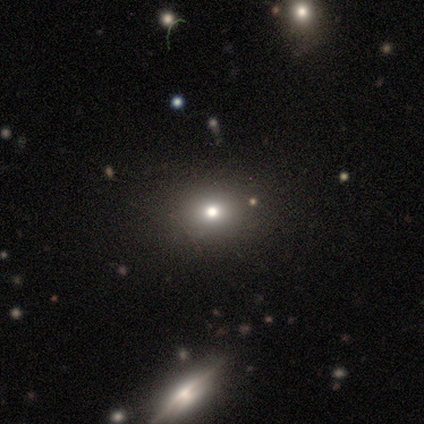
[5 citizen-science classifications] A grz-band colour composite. It shows a star or artifact, not a galaxy (60%).